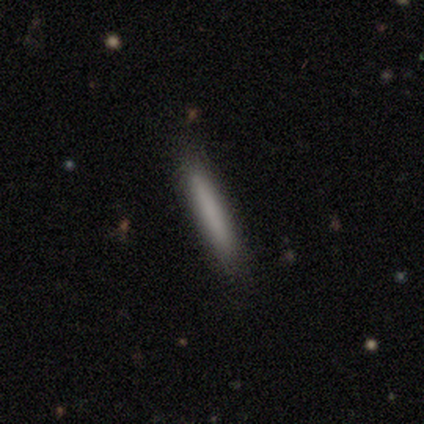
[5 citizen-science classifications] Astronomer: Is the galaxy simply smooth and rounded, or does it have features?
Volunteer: smooth — 100%.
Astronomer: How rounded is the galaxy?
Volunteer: cigar-shaped — 80%.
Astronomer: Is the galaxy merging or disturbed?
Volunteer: none — 100%.